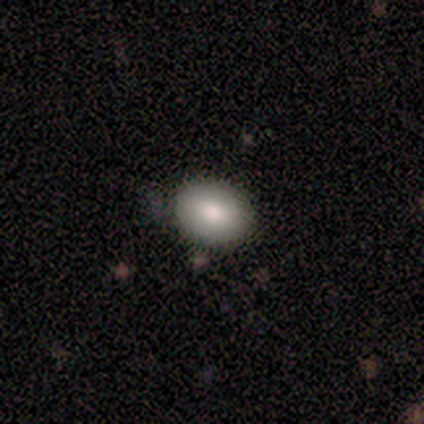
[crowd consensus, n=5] This appears to be a smooth galaxy with no disk features (80%) that is round (75%). Merging: none (100%).